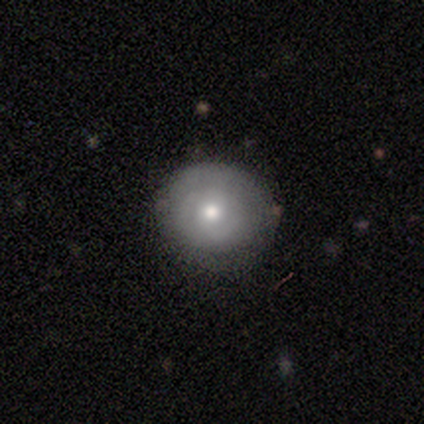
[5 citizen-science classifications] Overall: smooth (60%; featured or disk 40%). How rounded: round (67%; in between 33%). Merging: none (80%).